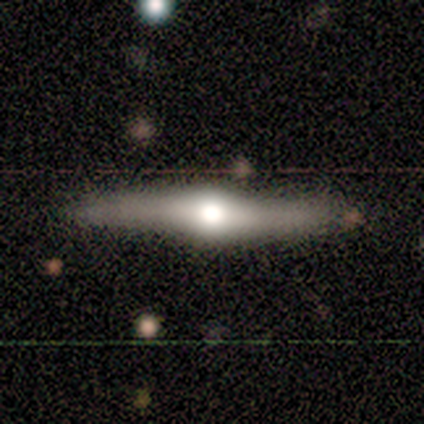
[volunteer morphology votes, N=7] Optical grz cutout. It shows a featured or disk galaxy (100%) viewed edge-on (100%) with a rounded central bulge (100%). Merging: none (86%).